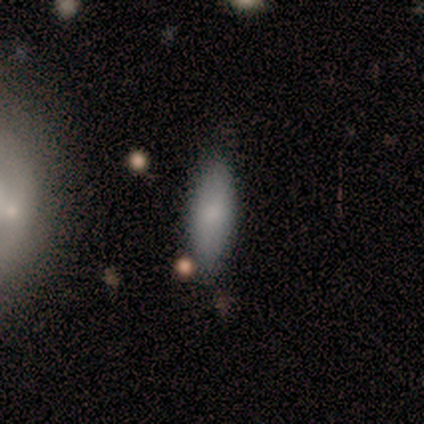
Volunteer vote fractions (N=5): Smooth or featured?
  - smooth: 100% *
  - featured or disk: 0%
  - star or artifact: 0%
How rounded?
  - in between: 60% *
  - cigar-shaped: 40%
  - round: 0%
Merging?
  - none: 80% *
  - minor disturbance: 20%
  - major disturbance: 0%
  - merger: 0%